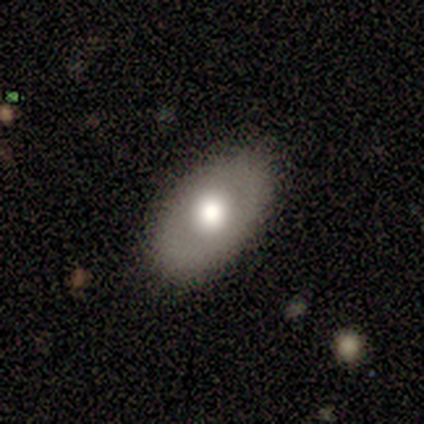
A smooth galaxy with no disk features (100%) that is in between round and cigar-shaped (100%).

Vote fractions:
- Smooth or featured? smooth: 100% / featured or disk: 0% / star or artifact: 0%
- How rounded? in between: 100% / round: 0% / cigar-shaped: 0%
- Merging? none: 100% / minor disturbance: 0% / major disturbance: 0% / merger: 0%